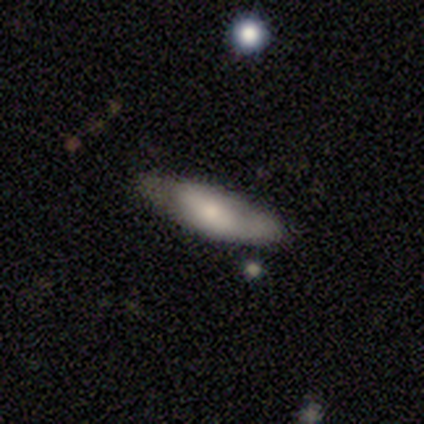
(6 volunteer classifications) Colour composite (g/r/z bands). It shows a featured or disk galaxy (50%) with no bar (67%), no spiral arms (67%) and a moderate central bulge (100%). Merging: minor disturbance (60%).